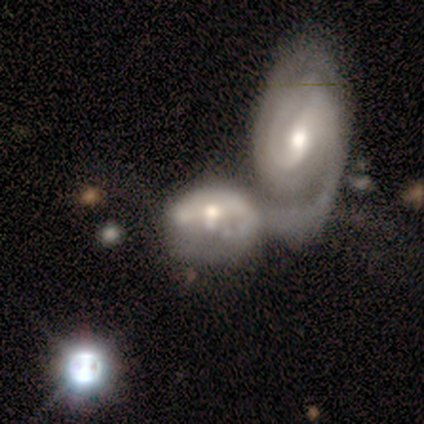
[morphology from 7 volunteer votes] smooth_or_featured: featured or disk (p=0.86) [alt: star or artifact p=0.14]
disk_edge_on: no (p=1.00)
bar: strong (p=0.33) [tied with: weak p=0.33, no p=0.33]
has_spiral_arms: yes (p=0.50) [tied with: no p=0.50]
spiral_winding: medium (p=0.67) [alt: tight p=0.33]
spiral_arm_count: can't tell (p=0.67) [alt: 1 p=0.33]
bulge_size: moderate (p=0.67) [alt: large p=0.17]
merging: merger (p=0.83) [alt: major disturbance p=0.17]